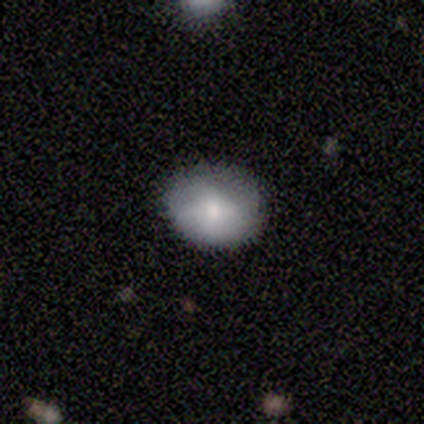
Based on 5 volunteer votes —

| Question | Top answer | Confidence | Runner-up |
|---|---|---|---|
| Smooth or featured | smooth | 60% | featured or disk (40%) |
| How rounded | round | 100% | — |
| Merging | none | 80% | minor disturbance (20%) |